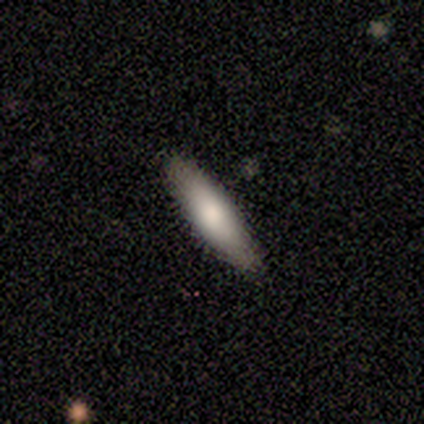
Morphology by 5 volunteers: type=smooth (60%); roundness=cigar-shaped (100%); merging=none (80%).